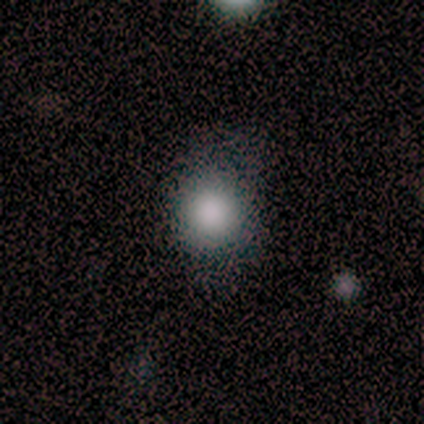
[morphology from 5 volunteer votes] Overall: smooth (100%). How rounded: round (80%). Merging: none (80%).